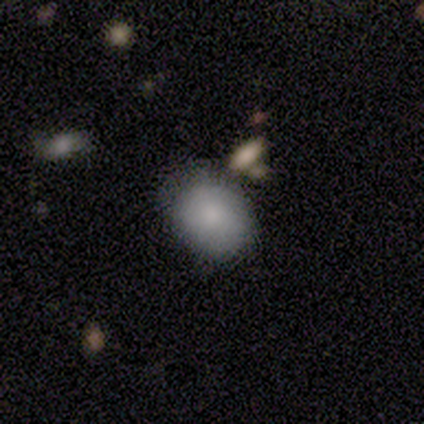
Overall: smooth (80%). How rounded: in between (100%). Merging: none (50%; minor disturbance 25%).